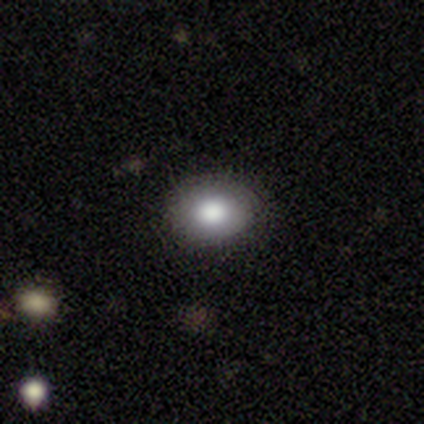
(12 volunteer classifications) Smooth or featured? 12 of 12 (100%) said smooth. How rounded? 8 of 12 (67%) said in between. Merging? 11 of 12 (92%) said none.